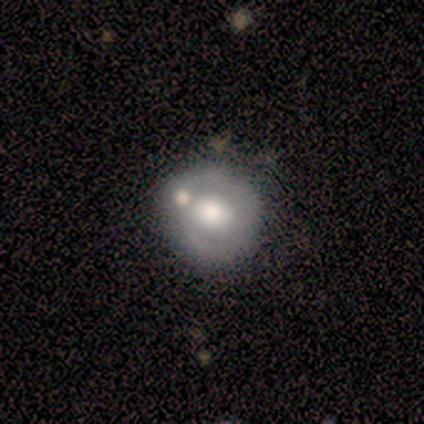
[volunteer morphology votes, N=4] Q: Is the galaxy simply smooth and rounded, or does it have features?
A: smooth — 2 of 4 (50%, tied with featured or disk).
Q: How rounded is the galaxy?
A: round — 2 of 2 (100%).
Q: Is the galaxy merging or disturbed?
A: none — 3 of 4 (75%).